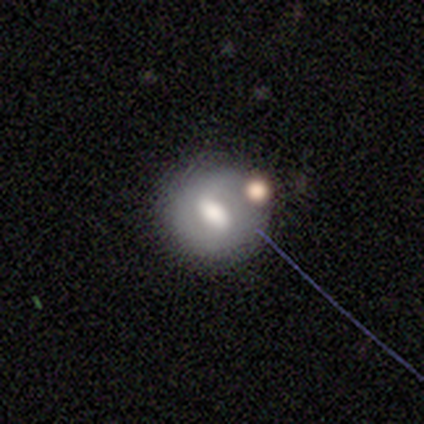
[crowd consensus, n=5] Smooth or featured? 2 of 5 (40%, tied with featured or disk) said smooth. How rounded? 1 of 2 (50%, tied with cigar-shaped) said in between. Merging? 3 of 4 (75%) said none.